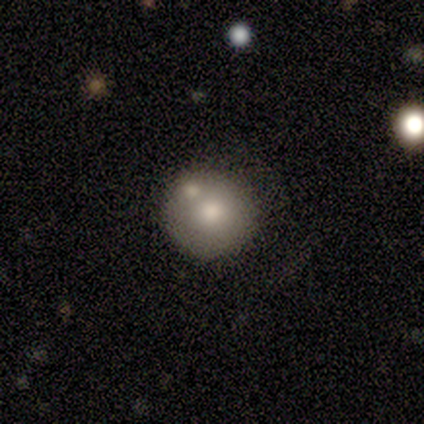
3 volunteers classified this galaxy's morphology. Volunteers were most divided on "smooth or featured": featured or disk: 67%, smooth: 33%, star or artifact: 0%. More confident: edge-on disk — no (100%); bar — no (100%); spiral arms — no (100%); bulge size — moderate (100%); merging — none (100%).